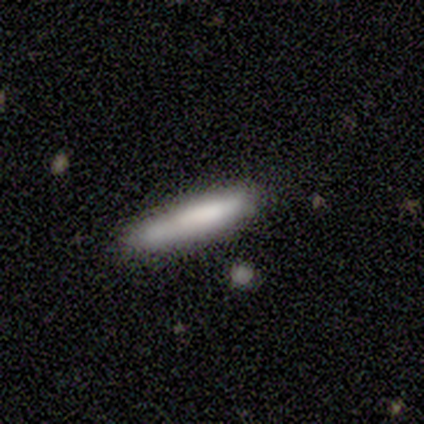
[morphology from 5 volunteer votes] This appears to be a smooth galaxy with no disk features (100%) that is cigar-shaped (100%). Merging: none (80%).